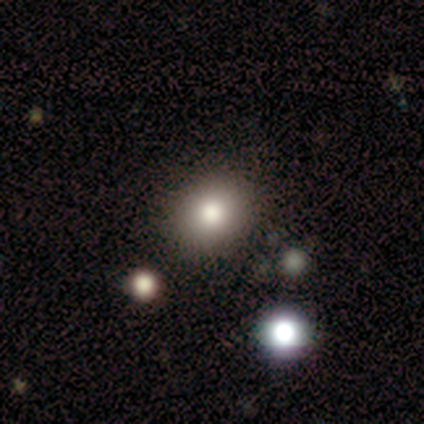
Q: Smooth or featured?
A: smooth (100%)
Q: How rounded?
A: round (80%); runner-up: in between (20%)
Q: Merging?
A: none (100%)